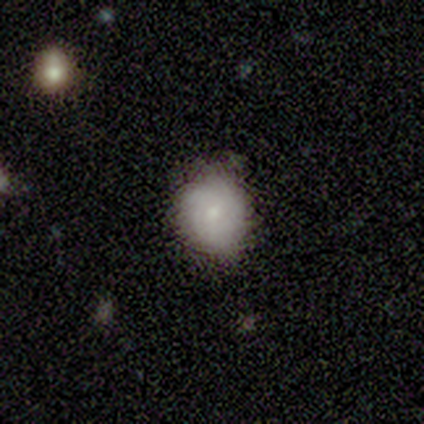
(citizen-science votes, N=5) A smooth galaxy with no disk features (100%) that is in between round and cigar-shaped (60%). Merging: none (60%).